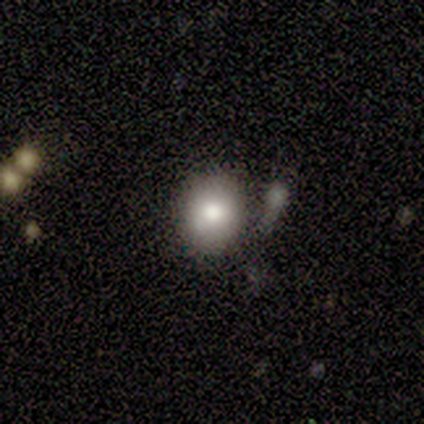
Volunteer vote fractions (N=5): Smooth or featured?
  - smooth: 100% *
  - featured or disk: 0%
  - star or artifact: 0%
How rounded?
  - in between: 60% *
  - round: 40%
  - cigar-shaped: 0%
Merging?
  - none: 60% *
  - minor disturbance: 20%
  - major disturbance: 20%
  - merger: 0%